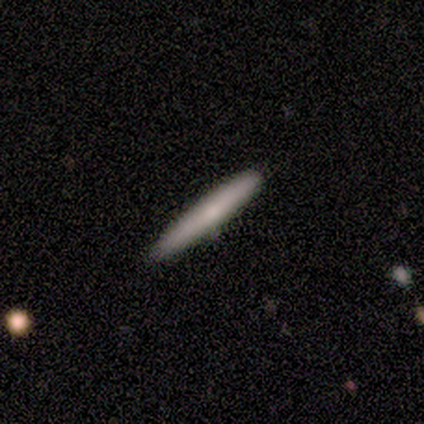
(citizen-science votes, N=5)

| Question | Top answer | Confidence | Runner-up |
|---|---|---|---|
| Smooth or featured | smooth | 60% | featured or disk (20%) |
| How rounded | cigar-shaped | 100% | — |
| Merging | none | 100% | — |